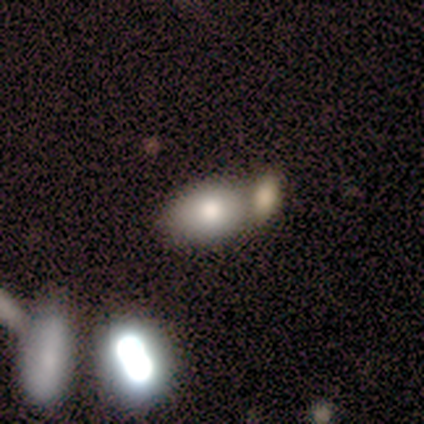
This appears to be a smooth galaxy with no disk features (100%) that is in between round and cigar-shaped (100%). Merging: none (80%).